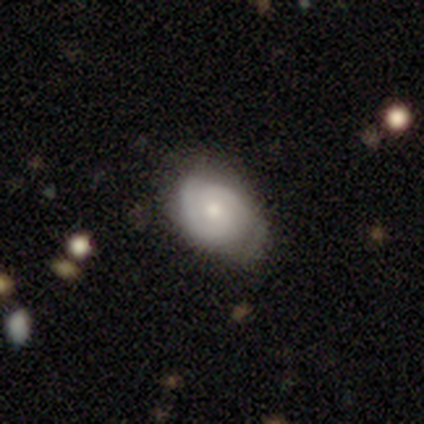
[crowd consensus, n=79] This appears to be a featured or disk galaxy (56%) with no bar (67%), 2 (76%) tight (48%) spiral arms (79%) and a moderate central bulge (67%). Merging: minor disturbance (25%).